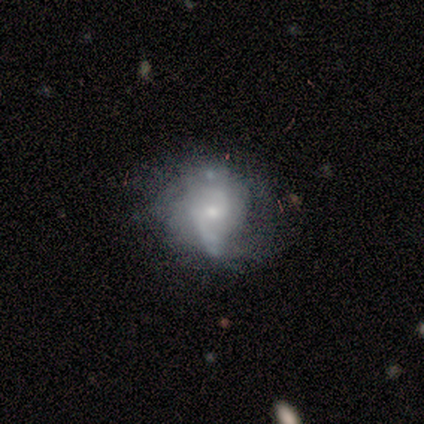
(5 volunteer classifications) A featured or disk galaxy (80%) with no bar (67%), 1 (50%, tied with 2) tight (50%, tied with medium) spiral arms (67%) and a small central bulge (67%).

Vote fractions:
- Smooth or featured? featured or disk: 80% / smooth: 20% / star or artifact: 0%
- Edge-on disk? no: 75% / yes: 25%
- Bar? no: 67% / weak: 33% / strong: 0%
- Spiral arms? yes: 67% / no: 33%
- Spiral winding? tight: 50% (tied) / medium: 50% (tied) / loose: 0%
- Spiral arm count? 1: 50% (tied) / 2: 50% (tied) / 3: 0% / 4: 0% / more than 4: 0% / can't tell: 0%
- Bulge size? small: 67% / moderate: 33% / dominant: 0% / large: 0% / none: 0%
- Merging? none: 60% / minor disturbance: 20% / merger: 20% / major disturbance: 0%